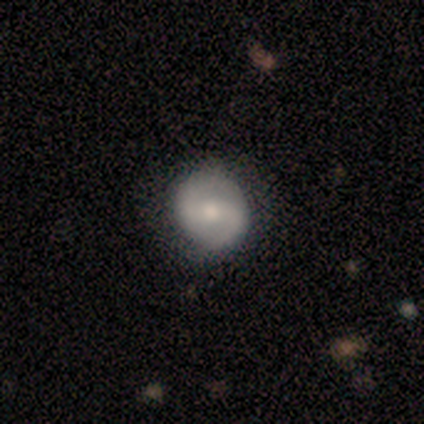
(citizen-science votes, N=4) Volunteers were most divided on "smooth or featured" (2-way tie): smooth: 50%, featured or disk: 50%, star or artifact: 0%. More confident: how rounded — round (100%); merging — none (100%).